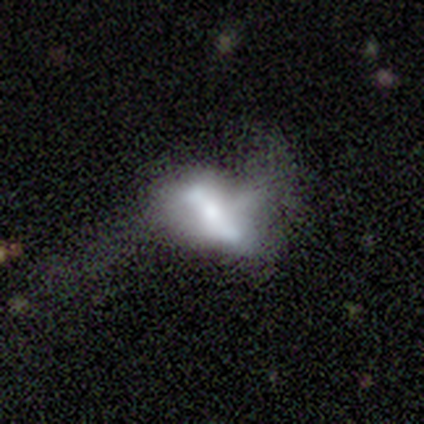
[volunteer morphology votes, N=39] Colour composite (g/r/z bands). It shows a featured or disk galaxy (49%) with a strong bar (47%), no spiral arms (65%) and a moderate central bulge (59%). Merging: major disturbance (57%).